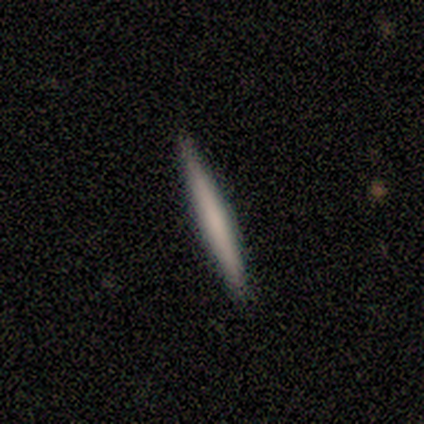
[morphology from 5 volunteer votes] smooth 60%, featured or disk 40%, star or artifact 0%. Down the decision tree: how rounded — cigar-shaped (100%); merging — none (100%).